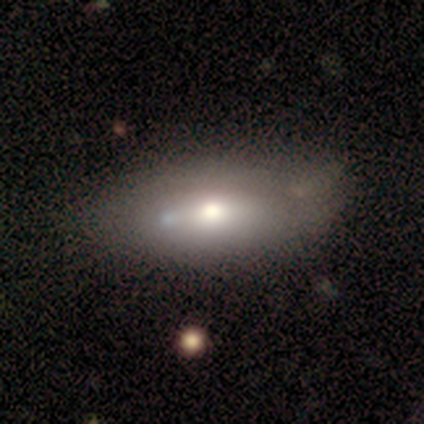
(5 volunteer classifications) Smooth or featured: smooth — 40% (tied with featured or disk — 40%)
How rounded: in between — 50% (tied with cigar-shaped — 50%)
Merging: none — 75% (merger — 25%)